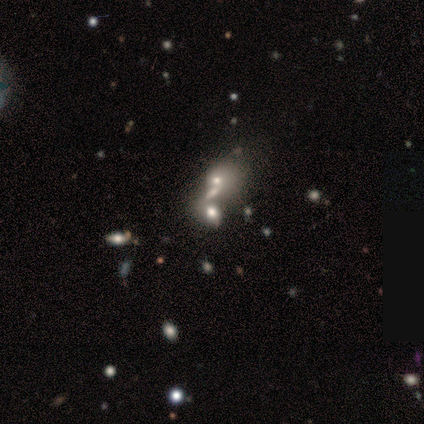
Q: Smooth or featured?
A: smooth (40%); tied with: featured or disk (40%)
Q: How rounded?
A: in between (100%)
Q: Merging?
A: merger (50%); runner-up: minor disturbance (25%)